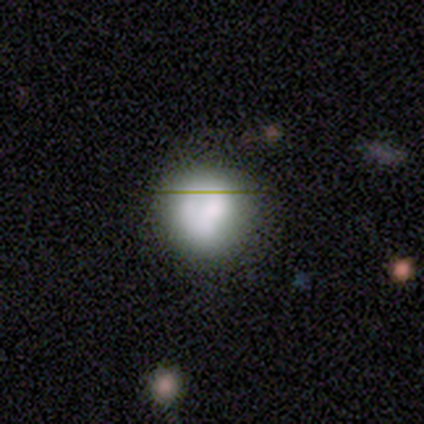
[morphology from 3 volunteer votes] This is marginally a smooth galaxy (33%, tied with featured or disk and star or artifact). How rounded: clearly round (100%). Merging: clearly none (100%).